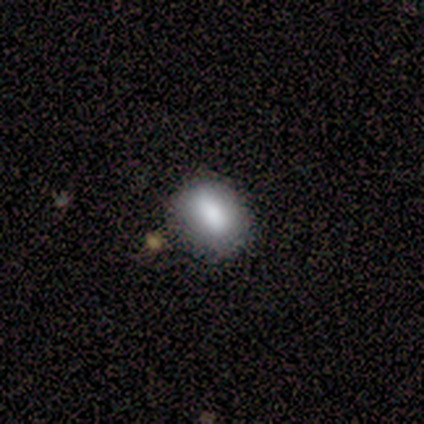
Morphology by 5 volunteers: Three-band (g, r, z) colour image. It shows a smooth galaxy with no disk features (80%) that is round (50%, tied with in between). Merging: none (75%).